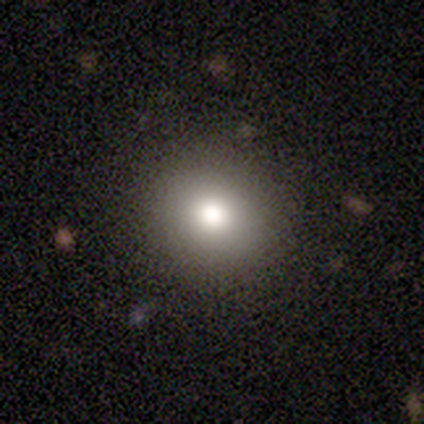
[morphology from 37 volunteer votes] Smooth or featured?
  - smooth: 76% *
  - star or artifact: 19%
  - featured or disk: 5%
How rounded?
  - round: 86% *
  - in between: 14%
  - cigar-shaped: 0%
Merging?
  - none: 90% *
  - minor disturbance: 7%
  - major disturbance: 3%
  - merger: 0%